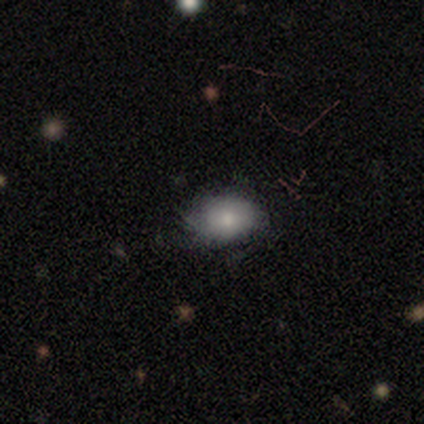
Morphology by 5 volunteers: Smooth or featured?
  - smooth: 100% *
  - featured or disk: 0%
  - star or artifact: 0%
How rounded?
  - in between: 80% *
  - round: 20%
  - cigar-shaped: 0%
Merging?
  - none: 80% *
  - minor disturbance: 20%
  - major disturbance: 0%
  - merger: 0%